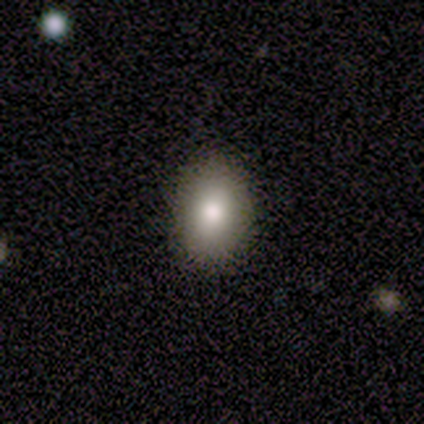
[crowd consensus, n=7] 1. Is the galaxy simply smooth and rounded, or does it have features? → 86% smooth, 14% star or artifact, 0% featured or disk.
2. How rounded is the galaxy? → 83% in between, 17% round, 0% cigar-shaped.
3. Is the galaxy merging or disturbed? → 100% none, 0% minor disturbance, 0% major disturbance, 0% merger.